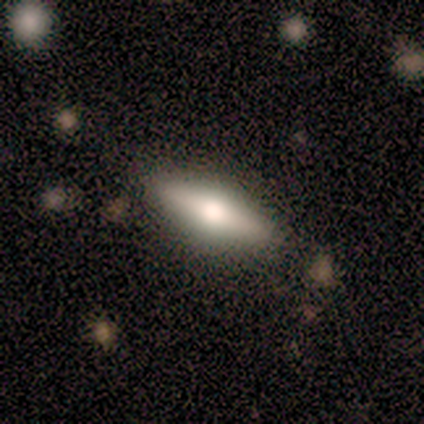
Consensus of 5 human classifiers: Morphology: type=featured or disk (60%); edge-on=yes (100%); edge-on bulge=rounded (67%); merging=none (80%).